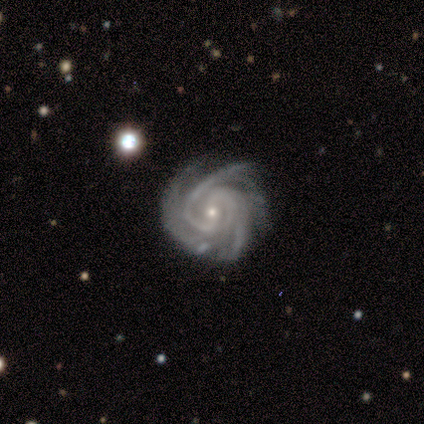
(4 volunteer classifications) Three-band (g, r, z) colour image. It shows a featured or disk galaxy (100%) with no bar (50%), 3 (75%) tight (75%) spiral arms (100%) and a small central bulge (100%). Merging: none (100%).